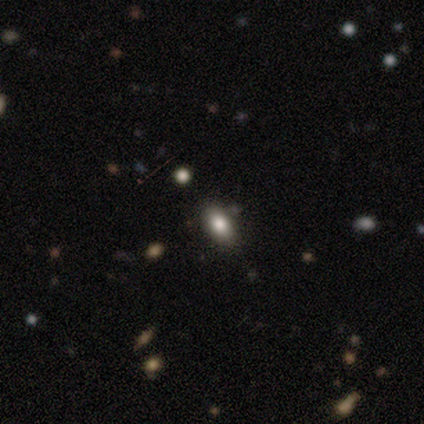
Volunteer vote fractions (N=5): Smooth or featured? smooth (60%)
How rounded? in between (100%)
Merging? none (75%)